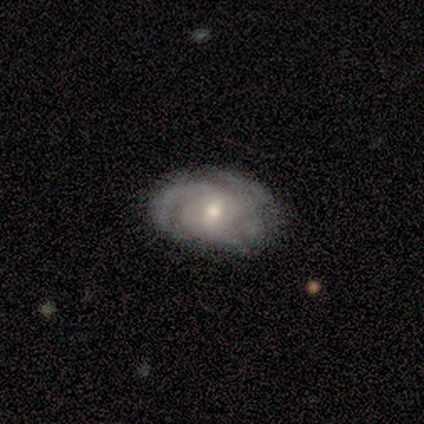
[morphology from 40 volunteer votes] Volunteers were most divided on "spiral arm count": can't tell: 42%, 3: 33%, 2: 21%, 4: 3%, 1: 0%, more than 4: 0%. Remaining: edge-on disk — no (100%); spiral arms — yes (100%); smooth or featured — featured or disk (82%); bulge size — moderate (61%); spiral winding — tight (55%); bar — weak (48%); merging — none (37%).